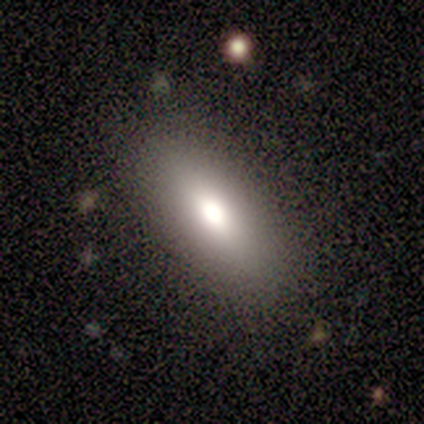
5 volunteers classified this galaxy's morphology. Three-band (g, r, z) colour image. It shows a smooth galaxy with no disk features (60%) that is in between round and cigar-shaped (67%). Merging: none (60%).